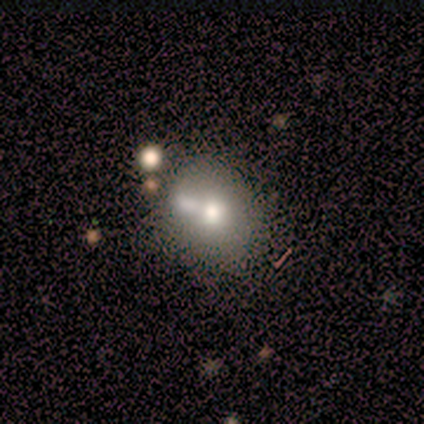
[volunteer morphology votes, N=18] Overall: smooth (67%). How rounded: round (67%; in between 33%). Merging: none (75%).